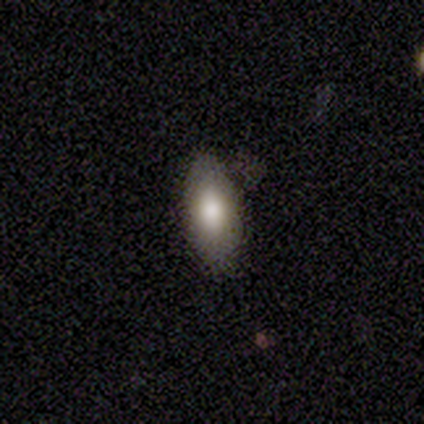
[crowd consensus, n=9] A smooth galaxy with no disk features (89%) that is in between round and cigar-shaped (100%).

Vote fractions:
- Smooth or featured? smooth: 89% / star or artifact: 11% / featured or disk: 0%
- How rounded? in between: 100% / round: 0% / cigar-shaped: 0%
- Merging? none: 88% / minor disturbance: 12% / major disturbance: 0% / merger: 0%